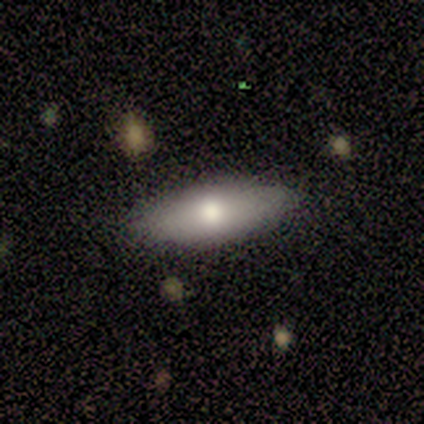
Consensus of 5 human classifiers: smooth-or-featured: smooth: 100% | featured or disk: 0% | star or artifact: 0%
  how-rounded: in between: 80% | cigar-shaped: 20% | round: 0%
  merging: none: 80% | minor disturbance: 20% | major disturbance: 0% | merger: 0%